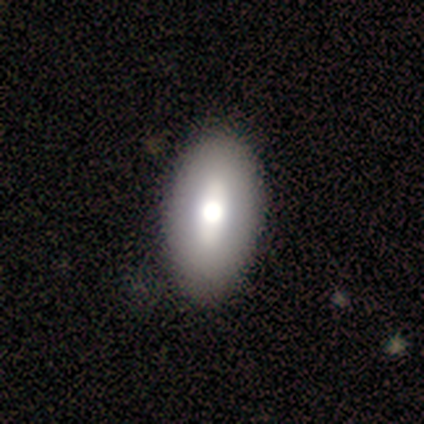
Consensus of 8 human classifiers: Smooth or featured?
  - smooth: 50% *
  - featured or disk: 25%
  - star or artifact: 25%
How rounded?
  - in between: 100% *
  - round: 0%
  - cigar-shaped: 0%
Merging?
  - none: 50% *
  - minor disturbance: 33%
  - major disturbance: 17%
  - merger: 0%